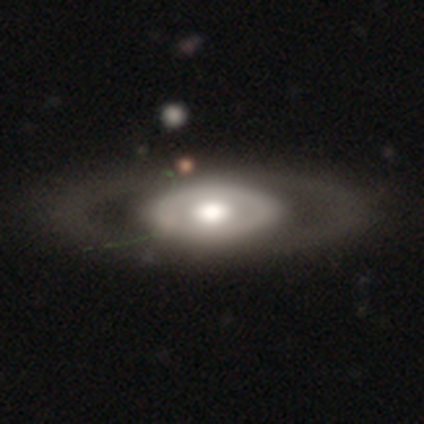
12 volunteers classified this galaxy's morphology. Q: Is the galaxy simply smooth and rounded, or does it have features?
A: featured or disk — 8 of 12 (67%).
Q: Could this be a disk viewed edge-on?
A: no — 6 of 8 (75%).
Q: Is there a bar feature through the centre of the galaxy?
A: no — 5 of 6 (83%).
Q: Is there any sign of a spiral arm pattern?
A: no — 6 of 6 (100%).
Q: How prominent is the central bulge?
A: large — 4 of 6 (67%).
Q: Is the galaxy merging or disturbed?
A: none — 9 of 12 (75%).